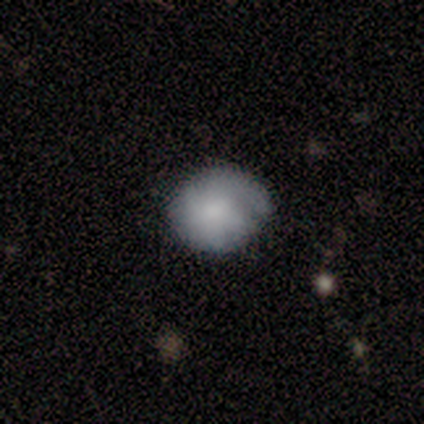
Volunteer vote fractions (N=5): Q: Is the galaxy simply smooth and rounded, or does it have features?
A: smooth — 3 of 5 (60%).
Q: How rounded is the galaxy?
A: round — 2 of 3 (67%).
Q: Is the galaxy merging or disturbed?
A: none — 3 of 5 (60%).